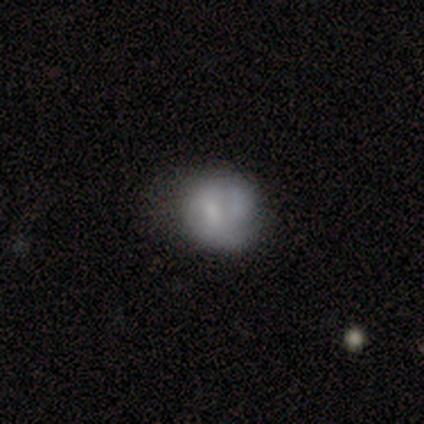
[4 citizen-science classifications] A smooth galaxy with no disk features (75%) that is in between round and cigar-shaped (67%).

Vote fractions:
- Smooth or featured? smooth: 75% / star or artifact: 25% / featured or disk: 0%
- How rounded? in between: 67% / round: 33% / cigar-shaped: 0%
- Merging? none: 100% / minor disturbance: 0% / major disturbance: 0% / merger: 0%